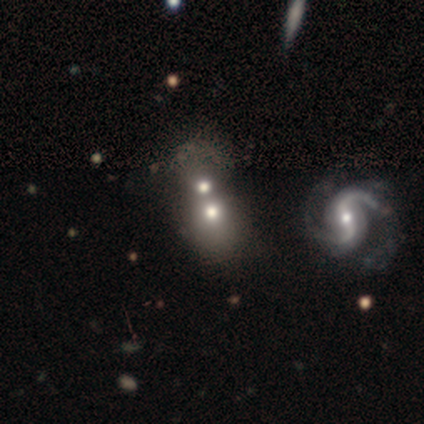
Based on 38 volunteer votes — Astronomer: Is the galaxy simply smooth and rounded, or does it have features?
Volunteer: smooth — 45% (runner-up: featured or disk, 39%).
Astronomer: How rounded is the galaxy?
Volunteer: round — 53% (runner-up: in between, 47%).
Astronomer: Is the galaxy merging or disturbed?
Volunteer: merger — 62%.